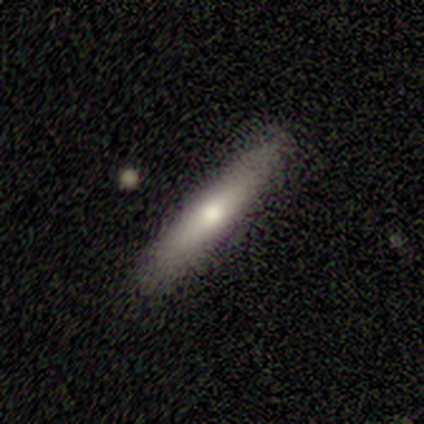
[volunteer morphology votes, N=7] Smooth or featured?
  - smooth: 57% *
  - featured or disk: 43%
  - star or artifact: 0%
How rounded?
  - cigar-shaped: 100% *
  - round: 0%
  - in between: 0%
Merging?
  - none: 100% *
  - minor disturbance: 0%
  - major disturbance: 0%
  - merger: 0%